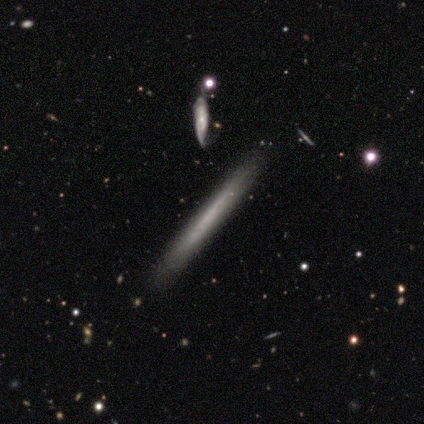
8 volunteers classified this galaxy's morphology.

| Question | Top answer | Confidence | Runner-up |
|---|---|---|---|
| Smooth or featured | featured or disk | 62% | smooth (38%) |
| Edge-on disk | yes | 100% | — |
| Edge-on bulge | none | 100% | — |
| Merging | none | 100% | — |